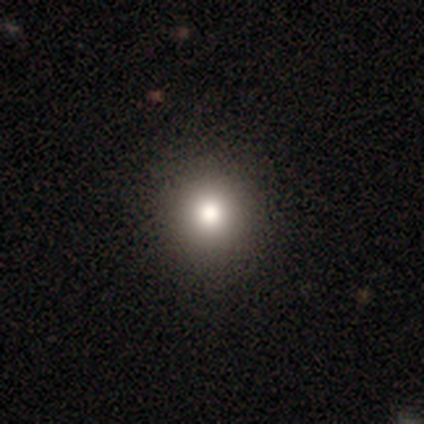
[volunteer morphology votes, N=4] Smooth or featured? smooth (100%)
How rounded? round (100%)
Merging? none (100%)